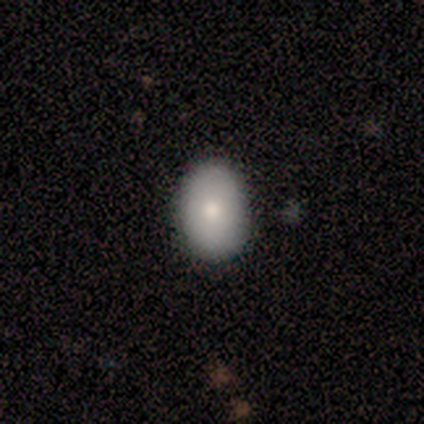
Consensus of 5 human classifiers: Volunteers were most divided on "merging": none: 60%, minor disturbance: 40%, major disturbance: 0%, merger: 0%. More confident: smooth or featured — smooth (100%); how rounded — in between (80%).